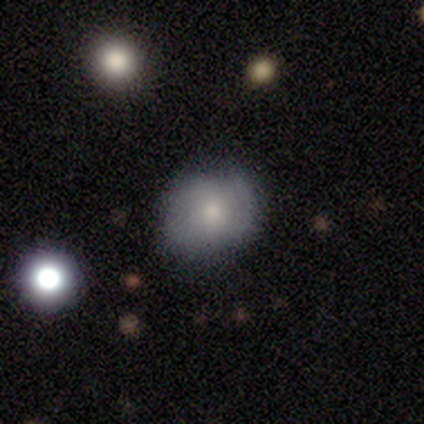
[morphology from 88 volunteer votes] smooth_or_featured: smooth (p=0.65) [alt: featured or disk p=0.20]
how_rounded: round (p=0.65) [alt: in between p=0.35]
merging: none (p=0.71) [alt: minor disturbance p=0.23]